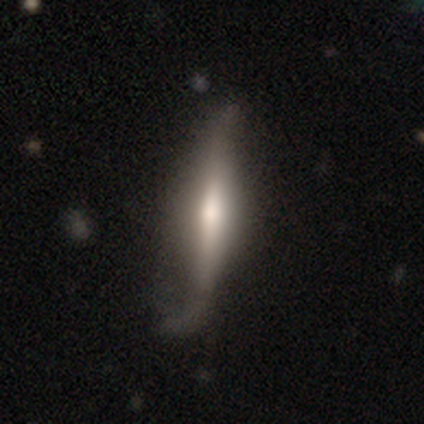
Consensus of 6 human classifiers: Q: Smooth or featured?
A: smooth (67%); runner-up: featured or disk (33%)
Q: How rounded?
A: cigar-shaped (100%)
Q: Merging?
A: none (67%); runner-up: minor disturbance (33%)